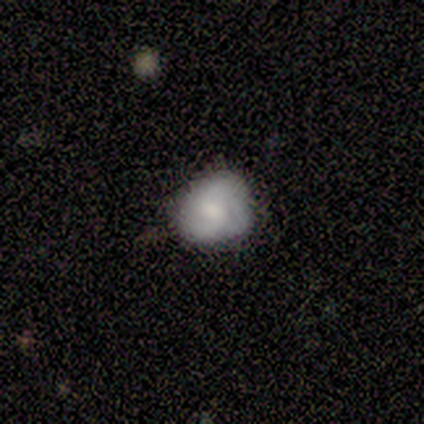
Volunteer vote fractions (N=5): A featured or disk galaxy (60%) with no bar (67%), 3 (67%) tight (67%) spiral arms (100%) and a small central bulge (67%).

Vote fractions:
- Smooth or featured? featured or disk: 60% / smooth: 40% / star or artifact: 0%
- Edge-on disk? no: 100% / yes: 0%
- Bar? no: 67% / weak: 33% / strong: 0%
- Spiral arms? yes: 100% / no: 0%
- Spiral winding? tight: 67% / medium: 33% / loose: 0%
- Spiral arm count? 3: 67% / 2: 33% / 1: 0% / 4: 0% / more than 4: 0% / can't tell: 0%
- Bulge size? small: 67% / none: 33% / dominant: 0% / large: 0% / moderate: 0%
- Merging? none: 80% / minor disturbance: 20% / major disturbance: 0% / merger: 0%